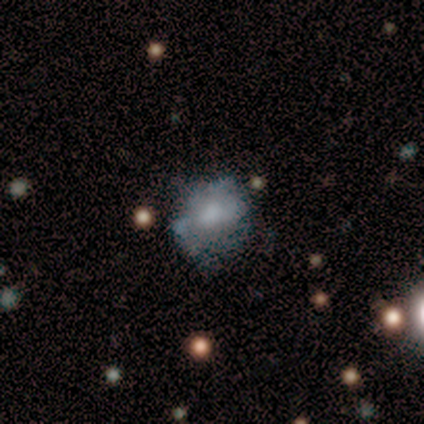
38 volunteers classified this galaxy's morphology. Volunteers were most divided on "merging": none: 37%, major disturbance: 32%, minor disturbance: 26%, merger: 5%. More confident: smooth or featured — smooth (58%); how rounded — round (55%).